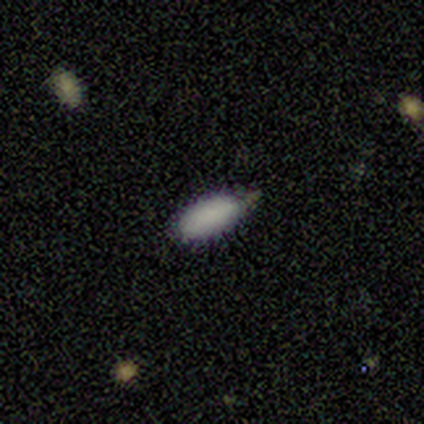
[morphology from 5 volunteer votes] Smooth or featured?
  - smooth: 100% *
  - featured or disk: 0%
  - star or artifact: 0%
How rounded?
  - in between: 100% *
  - round: 0%
  - cigar-shaped: 0%
Merging?
  - none: 100% *
  - minor disturbance: 0%
  - major disturbance: 0%
  - merger: 0%